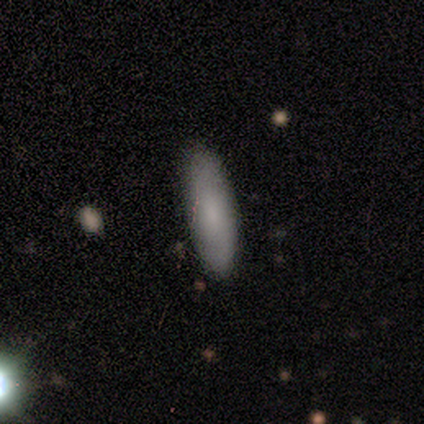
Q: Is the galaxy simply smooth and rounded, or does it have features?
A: smooth — 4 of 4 (100%).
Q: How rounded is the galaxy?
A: in between — 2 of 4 (50%, tied with cigar-shaped).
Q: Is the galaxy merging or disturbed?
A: none — 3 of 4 (75%).